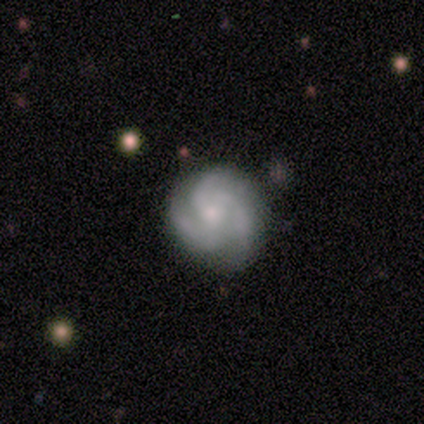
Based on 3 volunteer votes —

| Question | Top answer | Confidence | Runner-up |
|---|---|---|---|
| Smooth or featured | featured or disk | 100% | — |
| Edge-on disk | no | 100% | — |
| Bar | no | 100% | — |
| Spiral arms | yes | 100% | — |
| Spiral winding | tight | 67% | medium (33%) |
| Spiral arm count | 3 | 100% | — |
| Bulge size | small | 100% | — |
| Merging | minor disturbance | 67% | none (33%) |